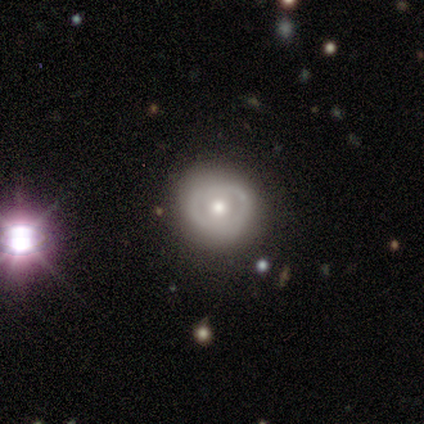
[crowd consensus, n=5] smooth_or_featured: featured or disk (p=0.60) [alt: smooth p=0.40]
disk_edge_on: no (p=1.00)
bar: no (p=1.00)
has_spiral_arms: no (p=0.67) [alt: yes p=0.33]
bulge_size: moderate (p=0.67) [alt: small p=0.33]
merging: none (p=1.00)